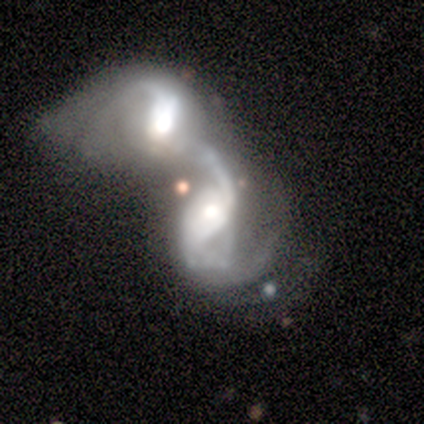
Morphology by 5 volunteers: This is clearly a featured or disk galaxy (100%). It is clearly not viewed edge-on (100%). Bar: likely no (60%). Spiral arm pattern: clearly yes (100%). Spiral arm count: clearly 2 (80%). Spiral winding: clearly loose (80%). Central bulge: likely moderate (60%). Merging: clearly merger (100%).